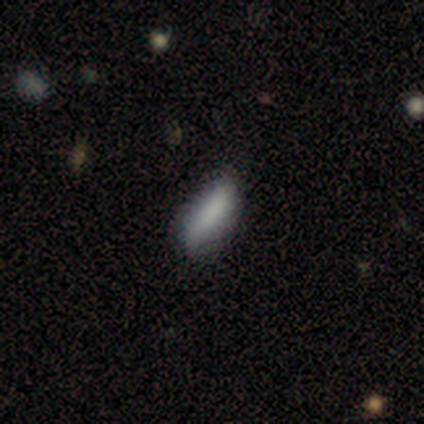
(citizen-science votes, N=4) This appears to be a smooth galaxy with no disk features (50%) that is in between round and cigar-shaped (50%, tied with cigar-shaped). Merging: none (33%, tied with minor disturbance and major disturbance).